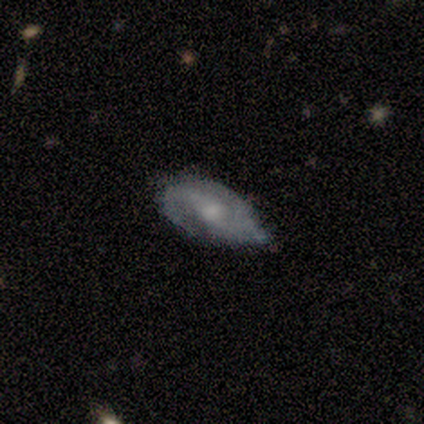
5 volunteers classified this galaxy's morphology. smooth-or-featured: featured or disk: 100% | smooth: 0% | star or artifact: 0%
  disk-edge-on: no: 100% | yes: 0%
    bar: weak: 40% (tied) | no: 40% (tied) | strong: 20%
    has-spiral-arms: yes: 100% | no: 0%
      spiral-winding: tight: 60% | medium: 20% | loose: 20%
      spiral-arm-count: 2: 80% | can't tell: 20% | 1: 0% | 3: 0% | 4: 0% | more than 4: 0%
    bulge-size: none: 40% | large: 20% | moderate: 20% | small: 20% | dominant: 0%
  merging: none: 60% | minor disturbance: 40% | major disturbance: 0% | merger: 0%